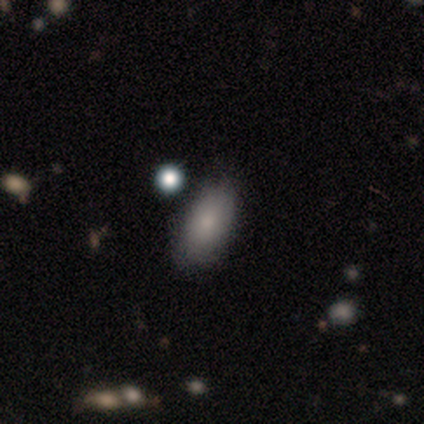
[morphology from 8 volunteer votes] Smooth or featured: smooth — 88% (star or artifact — 12%)
How rounded: in between — 86% (round — 14%)
Merging: none — 86% (minor disturbance — 14%)